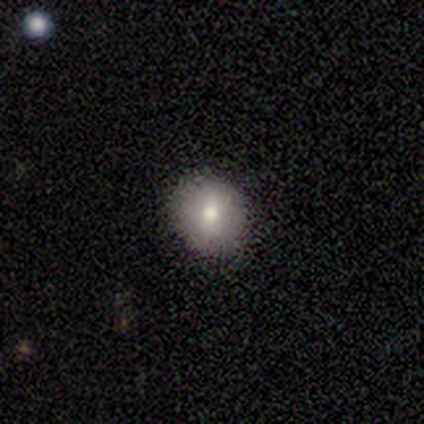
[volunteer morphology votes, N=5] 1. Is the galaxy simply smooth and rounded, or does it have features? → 60% smooth, 20% featured or disk, 20% star or artifact.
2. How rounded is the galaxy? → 67% round, 33% in between, 0% cigar-shaped.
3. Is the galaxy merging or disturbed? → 100% none, 0% minor disturbance, 0% major disturbance, 0% merger.